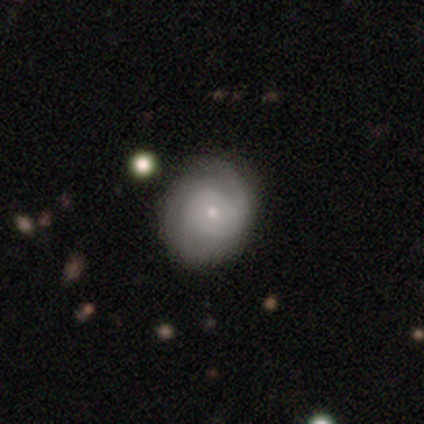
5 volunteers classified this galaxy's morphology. Q: Smooth or featured?
A: featured or disk (60%); runner-up: smooth (40%)
Q: Edge-on disk?
A: no (67%); runner-up: yes (33%)
Q: Bar?
A: weak (100%)
Q: Spiral arms?
A: yes (100%)
Q: Spiral winding?
A: tight (100%)
Q: Spiral arm count?
A: 3 (100%)
Q: Bulge size?
A: moderate (50%); tied with: small (50%)
Q: Merging?
A: none (80%); runner-up: minor disturbance (20%)